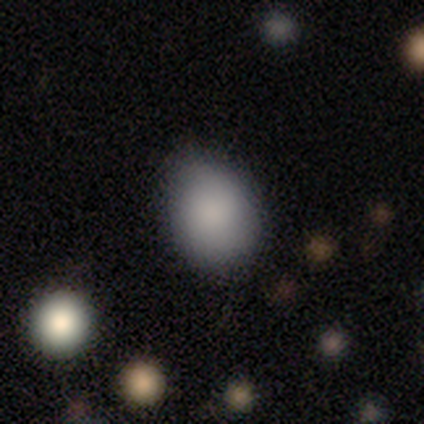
Morphology: type=smooth (89%); roundness=in between (53%); merging=none (67%).